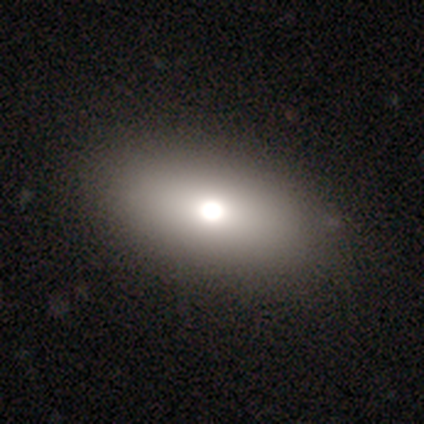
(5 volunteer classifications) Volunteers were most divided on "smooth or featured": smooth: 80%, featured or disk: 20%, star or artifact: 0%. More confident: how rounded — in between (100%); merging — none (80%).